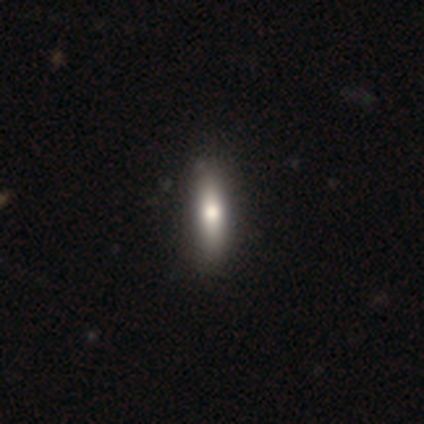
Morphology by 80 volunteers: Q: Smooth or featured?
A: smooth (74%); runner-up: featured or disk (21%)
Q: How rounded?
A: cigar-shaped (63%); runner-up: in between (36%)
Q: Merging?
A: none (45%); runner-up: minor disturbance (3%)